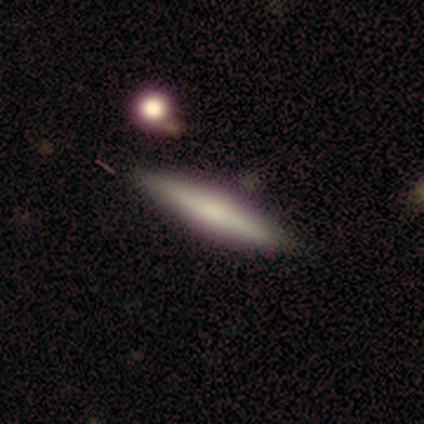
This is clearly a smooth galaxy (100%). How rounded: clearly cigar-shaped (100%). Merging: clearly none (100%).